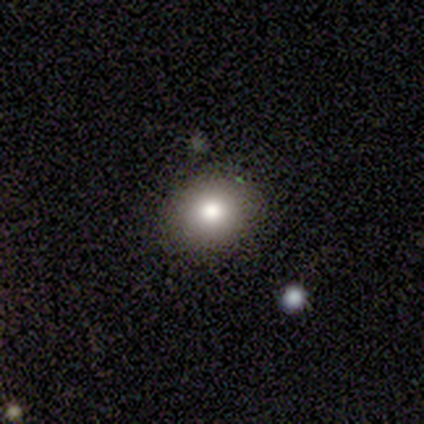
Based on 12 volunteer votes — A smooth galaxy with no disk features (83%) that is round (80%). Merging: none (83%).